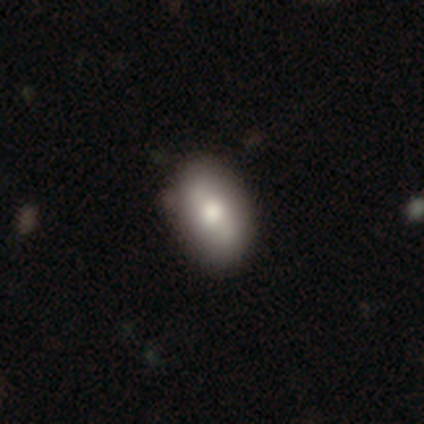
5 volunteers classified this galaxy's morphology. Q: Smooth or featured?
A: smooth (60%); runner-up: featured or disk (20%)
Q: How rounded?
A: in between (100%)
Q: Merging?
A: none (100%)